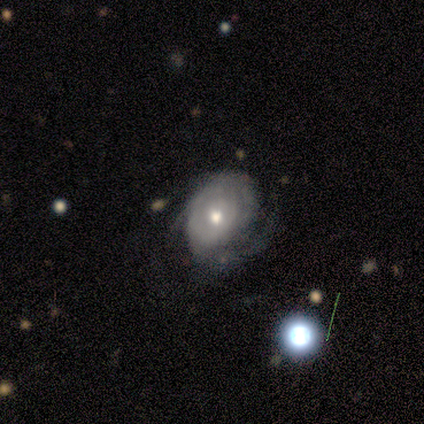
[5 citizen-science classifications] Morphology: type=smooth (40%, tied with featured or disk); roundness=round (50%, tied with in between); merging=minor disturbance (75%).